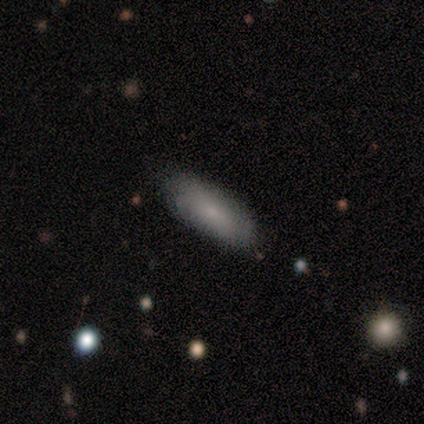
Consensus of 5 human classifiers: smooth 60%, featured or disk 40%, star or artifact 0%. Down the decision tree: how rounded — in between (67%); merging — none (60%).